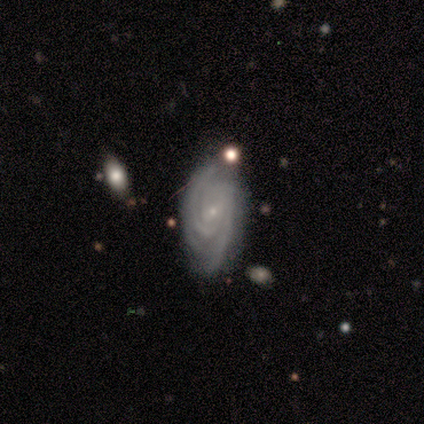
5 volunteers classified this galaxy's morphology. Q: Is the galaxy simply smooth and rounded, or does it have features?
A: featured or disk — 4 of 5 (80%).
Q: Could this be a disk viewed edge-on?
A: no — 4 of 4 (100%).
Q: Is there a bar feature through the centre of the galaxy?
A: no — 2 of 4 (50%).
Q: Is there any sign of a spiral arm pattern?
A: yes — 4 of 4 (100%).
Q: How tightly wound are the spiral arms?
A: tight — 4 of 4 (100%).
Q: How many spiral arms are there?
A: can't tell — 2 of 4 (50%).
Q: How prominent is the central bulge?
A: small — 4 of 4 (100%).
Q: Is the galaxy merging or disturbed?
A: minor disturbance — 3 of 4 (75%).